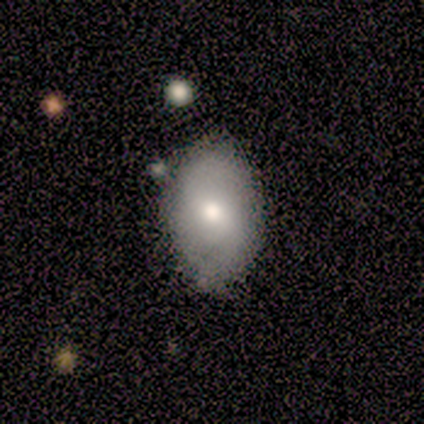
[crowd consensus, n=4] Smooth or featured?
  - smooth: 75% *
  - featured or disk: 25%
  - star or artifact: 0%
How rounded?
  - in between: 67% *
  - round: 33%
  - cigar-shaped: 0%
Merging?
  - none: 100% *
  - minor disturbance: 0%
  - major disturbance: 0%
  - merger: 0%